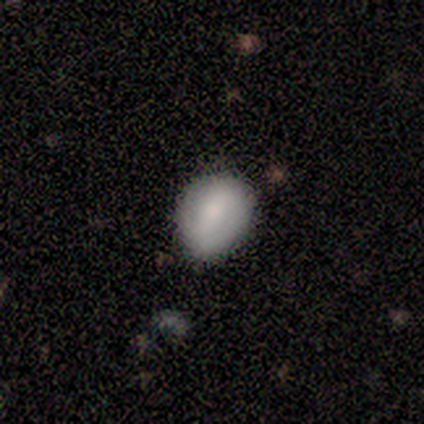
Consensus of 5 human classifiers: smooth 60%, featured or disk 20%, star or artifact 20%. Down the decision tree: how rounded — in between (100%); merging — none (50%, tied with minor disturbance).